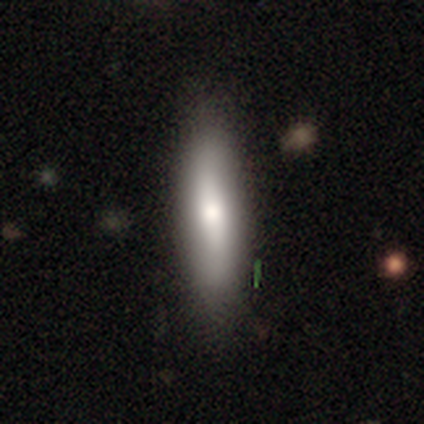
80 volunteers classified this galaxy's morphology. Smooth or featured?
  - smooth: 74% *
  - featured or disk: 25%
  - star or artifact: 1%
How rounded?
  - cigar-shaped: 71% *
  - in between: 29%
  - round: 0%
Merging?
  - none: 41% *
  - minor disturbance: 8%
  - merger: 5%
  - major disturbance: 1%